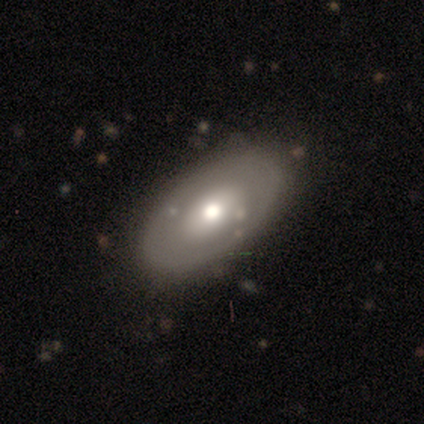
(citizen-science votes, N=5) Overall: featured or disk (60%; smooth 40%). Edge-on disk: no (100%). Bar: no (100%). Spiral arms: no (100%). Bulge size: moderate (100%). Merging: none (60%; minor disturbance 20%).